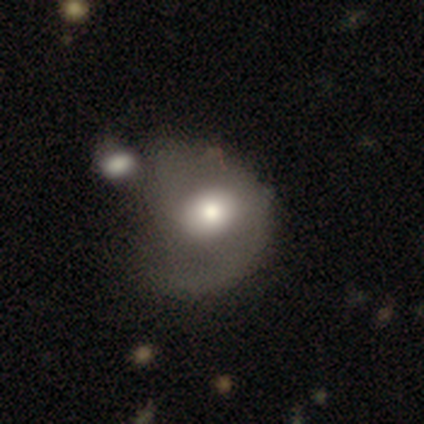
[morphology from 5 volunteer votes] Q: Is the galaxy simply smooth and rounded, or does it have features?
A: featured or disk — 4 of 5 (80%).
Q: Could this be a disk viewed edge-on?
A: no — 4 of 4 (100%).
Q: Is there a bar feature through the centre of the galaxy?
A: no — 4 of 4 (100%).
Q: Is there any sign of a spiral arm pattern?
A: no — 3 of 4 (75%).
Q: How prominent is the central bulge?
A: moderate — 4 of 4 (100%).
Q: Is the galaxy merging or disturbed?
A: merger — 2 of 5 (40%).